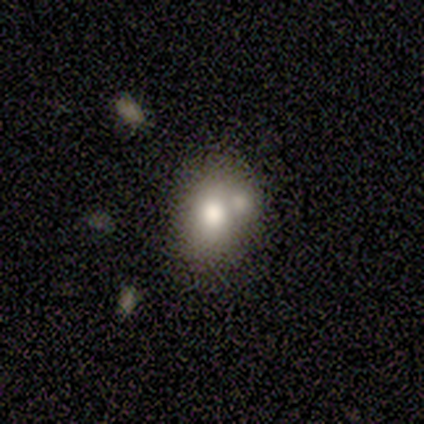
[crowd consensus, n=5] Smooth or featured: smooth — 60% (featured or disk — 20%)
How rounded: in between — 67% (round — 33%)
Merging: merger — 75% (minor disturbance — 25%)